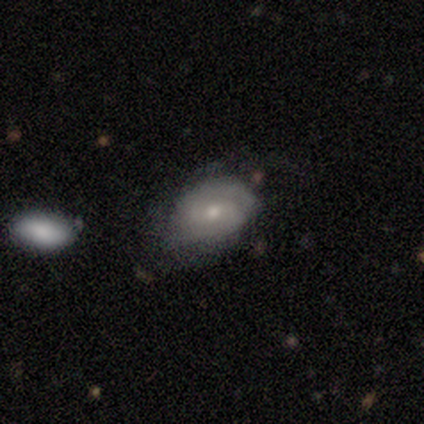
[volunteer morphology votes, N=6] Overall: featured or disk (67%; smooth 33%). Edge-on disk: no (100%). Bar: no (75%). Spiral arms: yes (75%). Spiral arm count: 2 (67%; can't tell 33%). Spiral winding: medium (100%). Bulge size: moderate (100%). Merging: none (50%; minor disturbance 33%).